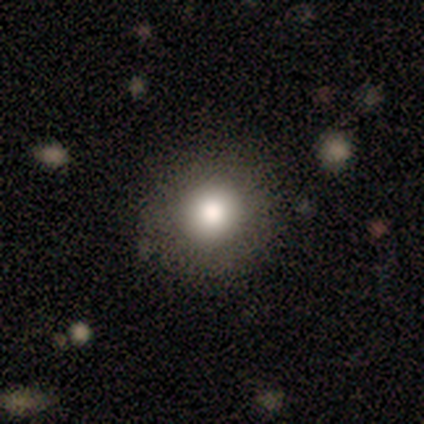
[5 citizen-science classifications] Morphology: type=smooth (60%); roundness=round (100%); merging=none (100%).